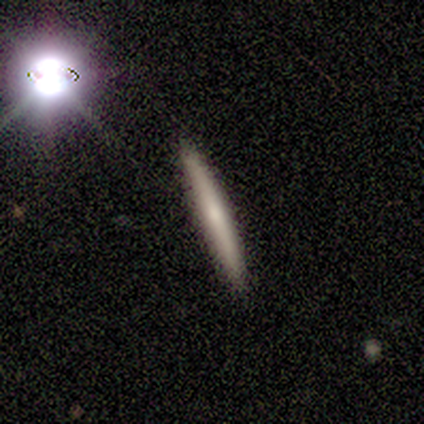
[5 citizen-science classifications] A smooth galaxy with no disk features (60%) that is cigar-shaped (100%). Merging: none (75%).